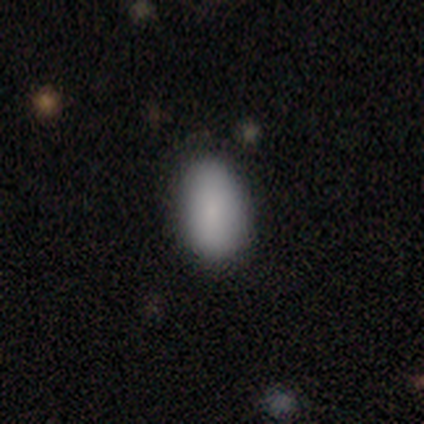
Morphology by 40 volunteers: This is clearly a smooth galaxy (88%). How rounded: clearly in between (91%). Merging: likely none (71%).